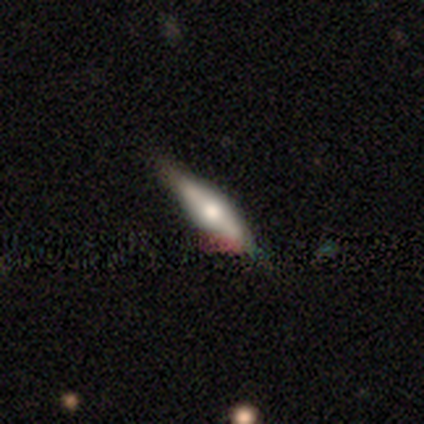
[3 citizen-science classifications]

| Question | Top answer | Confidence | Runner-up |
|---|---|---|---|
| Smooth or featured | smooth | 67% | featured or disk (33%) |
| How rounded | cigar-shaped | 100% | — |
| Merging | minor disturbance | 67% | none (33%) |